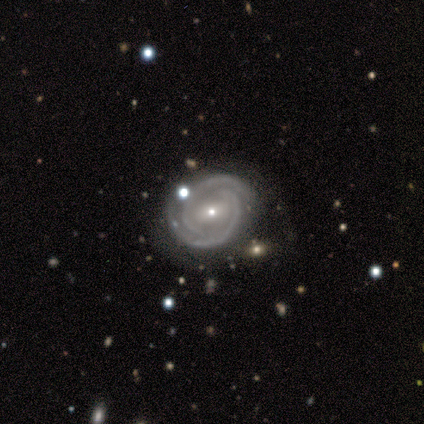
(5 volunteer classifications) Morphology: type=featured or disk (100%); edge-on=no (100%); bar=no (60%); spiral arms=yes (100%); winding=tight (60%); arm count=2 (100%); bulge=small (60%); merging=none (100%).